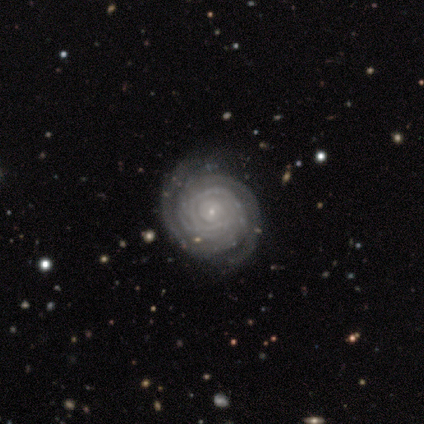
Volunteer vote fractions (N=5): Smooth or featured?
  - featured or disk: 80% *
  - smooth: 20%
  - star or artifact: 0%
Edge-on disk?
  - no: 100% *
  - yes: 0%
Bar?
  - no: 75% *
  - weak: 25%
  - strong: 0%
Spiral arms?
  - yes: 100% *
  - no: 0%
Spiral winding?
  - tight: 100% *
  - medium: 0%
  - loose: 0%
Spiral arm count?
  - 2: 50% *
  - 3: 25%
  - can't tell: 25%
  - 1: 0%
  - 4: 0%
  - more than 4: 0%
Bulge size?
  - small: 75% *
  - moderate: 25%
  - dominant: 0%
  - large: 0%
  - none: 0%
Merging?
  - none: 100% *
  - minor disturbance: 0%
  - major disturbance: 0%
  - merger: 0%